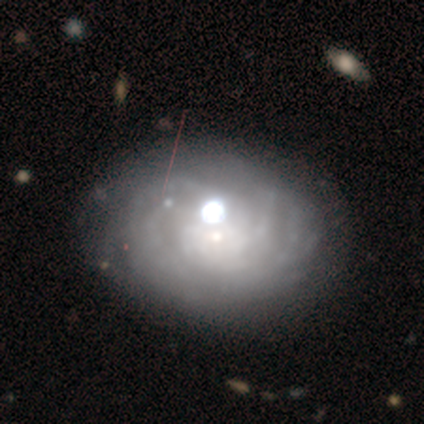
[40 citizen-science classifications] featured or disk 88%, smooth 10%, star or artifact 2%. Down the decision tree: edge-on disk — no (97%); bar — no (91%); spiral arms — yes (82%); spiral arm count — can't tell (54%); spiral winding — tight (79%); bulge size — small (71%); merging — none (38%).